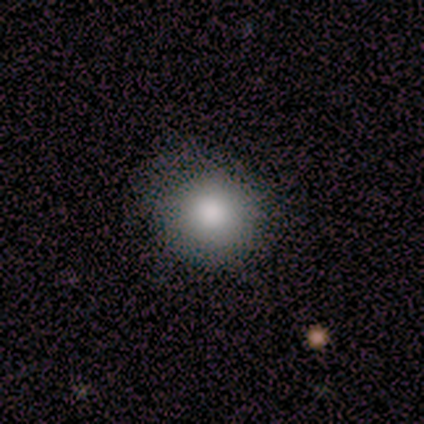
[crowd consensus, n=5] Volunteers were most divided on "merging" (2-way tie): none: 50%, minor disturbance: 50%, major disturbance: 0%, merger: 0%. More confident: how rounded — round (100%); smooth or featured — smooth (80%).